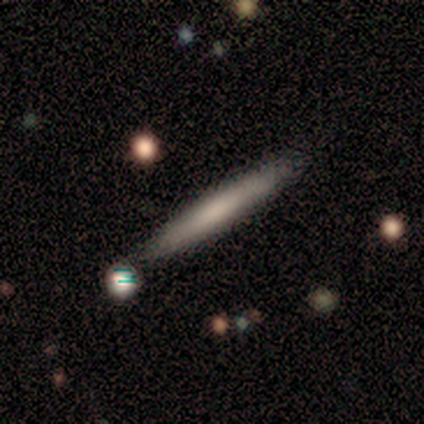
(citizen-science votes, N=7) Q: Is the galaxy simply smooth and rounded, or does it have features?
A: featured or disk — 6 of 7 (86%).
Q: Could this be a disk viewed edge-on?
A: yes — 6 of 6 (100%).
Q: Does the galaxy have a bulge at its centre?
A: none — 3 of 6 (50%).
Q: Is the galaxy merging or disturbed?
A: none — 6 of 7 (86%).